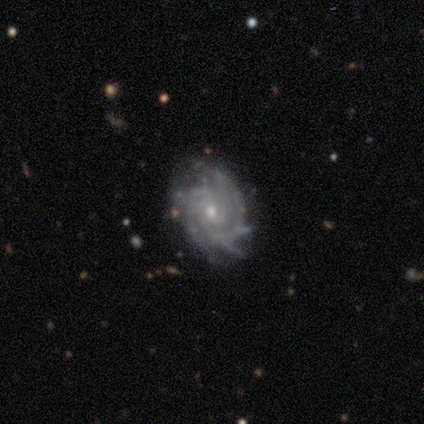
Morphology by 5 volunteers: A featured or disk galaxy (100%) with a weak bar (60%), tight (80%) spiral arms (100%) and a small central bulge (80%).

Vote fractions:
- Smooth or featured? featured or disk: 100% / smooth: 0% / star or artifact: 0%
- Edge-on disk? no: 100% / yes: 0%
- Bar? weak: 60% / no: 40% / strong: 0%
- Spiral arms? yes: 100% / no: 0%
- Spiral winding? tight: 80% / medium: 20% / loose: 0%
- Spiral arm count? can't tell: 60% / 3: 20% / 4: 20% / 1: 0% / 2: 0% / more than 4: 0%
- Bulge size? small: 80% / moderate: 20% / dominant: 0% / large: 0% / none: 0%
- Merging? none: 40% (tied) / minor disturbance: 40% (tied) / major disturbance: 20% / merger: 0%